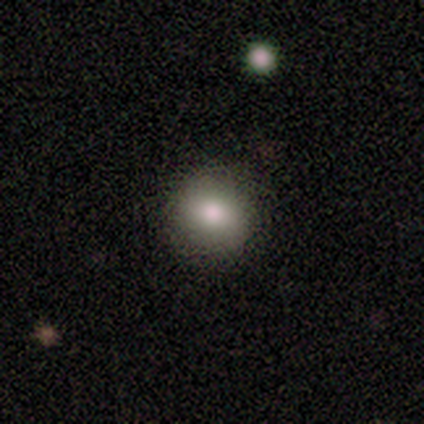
This is likely a smooth galaxy (60%). How rounded: likely round (67%). Merging: clearly none (100%).